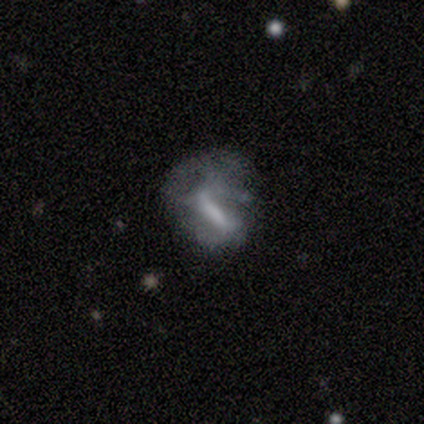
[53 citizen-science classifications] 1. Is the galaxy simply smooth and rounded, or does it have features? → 68% featured or disk, 25% smooth, 8% star or artifact.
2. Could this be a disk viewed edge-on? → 92% no, 8% yes.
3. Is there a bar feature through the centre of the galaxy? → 70% strong, 21% no, 9% weak.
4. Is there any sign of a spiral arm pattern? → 52% no, 48% yes.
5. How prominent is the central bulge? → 45% none, 33% moderate, 18% small, 3% large, 0% dominant.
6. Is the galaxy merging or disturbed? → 53% major disturbance, 27% none, 18% minor disturbance, 2% merger.